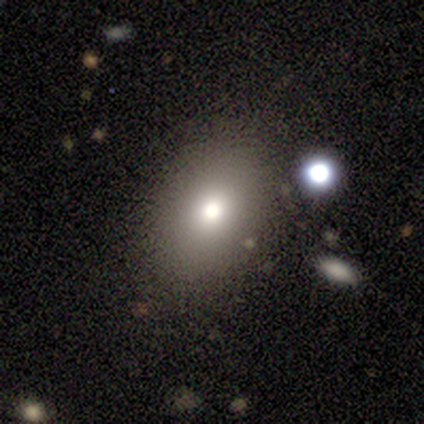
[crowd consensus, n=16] Overall: smooth (69%). How rounded: in between (64%; round 36%). Merging: none (87%).